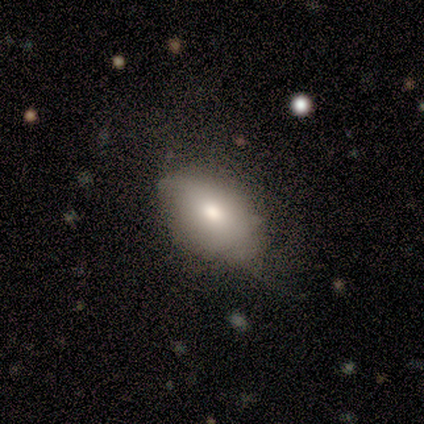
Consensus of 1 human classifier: Smooth or featured? smooth (100%)
How rounded? in between (100%)
Merging? none (100%)